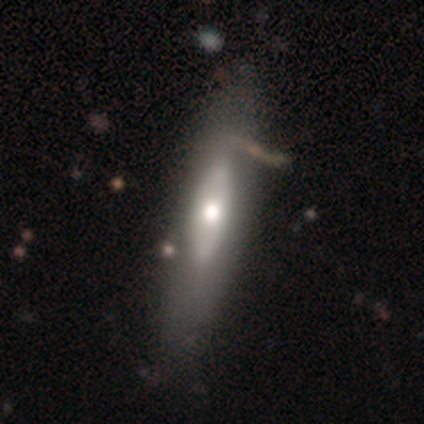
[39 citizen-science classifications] smooth-or-featured: featured or disk: 67% | smooth: 33% | star or artifact: 0%
  disk-edge-on: yes: 58% | no: 42%
    edge-on-bulge: rounded: 67% | none: 27% | boxy: 7%
  merging: none: 64% | minor disturbance: 18% | major disturbance: 3% | merger: 3%